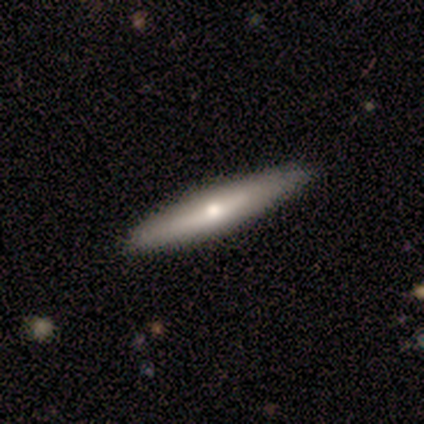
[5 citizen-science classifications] A featured or disk galaxy (80%) viewed edge-on (75%) with a rounded central bulge (100%). Merging: none (80%).